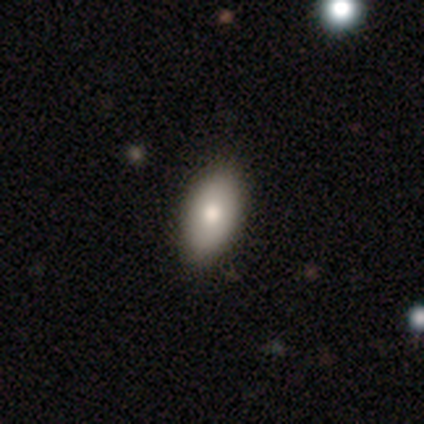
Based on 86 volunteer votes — Smooth or featured: smooth — 86% (featured or disk — 8%)
How rounded: in between — 99% (cigar-shaped — 1%)
Merging: none — 88% (minor disturbance — 10%)